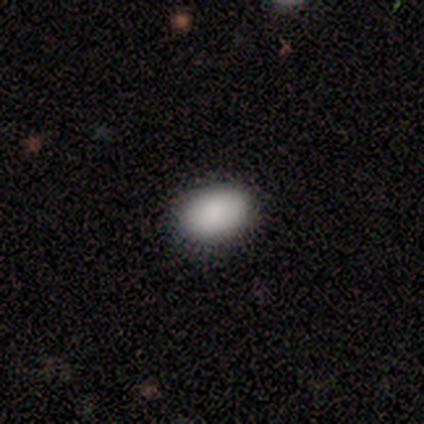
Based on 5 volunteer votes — This is clearly a smooth galaxy (100%). How rounded: clearly in between (100%). Merging: clearly none (100%).